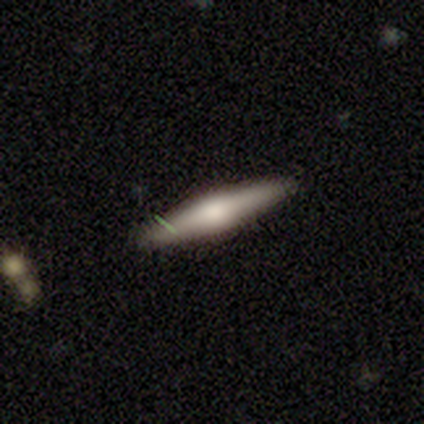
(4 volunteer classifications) Volunteers were most divided on "smooth or featured" (2-way tie): smooth: 50%, featured or disk: 50%, star or artifact: 0%. More confident: how rounded — cigar-shaped (100%); merging — none (75%).